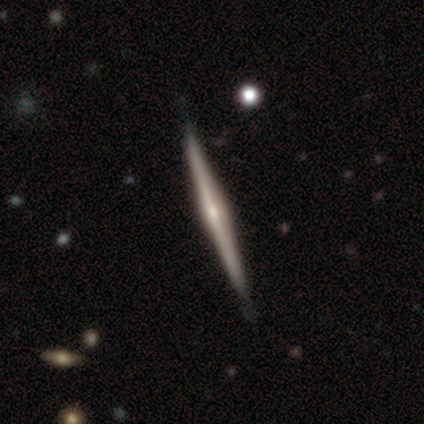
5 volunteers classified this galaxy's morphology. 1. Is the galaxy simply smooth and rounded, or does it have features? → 80% featured or disk, 20% smooth, 0% star or artifact.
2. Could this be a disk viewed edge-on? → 75% yes, 25% no.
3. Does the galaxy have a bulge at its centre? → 67% rounded, 33% none, 0% boxy.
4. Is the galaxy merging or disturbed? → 60% none, 40% minor disturbance, 0% major disturbance, 0% merger.